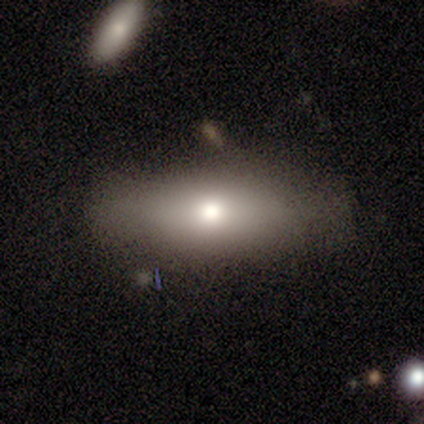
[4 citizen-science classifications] smooth-or-featured: smooth: 50% | featured or disk: 25% | star or artifact: 25%
  how-rounded: in between: 100% | round: 0% | cigar-shaped: 0%
  merging: none: 100% | minor disturbance: 0% | major disturbance: 0% | merger: 0%